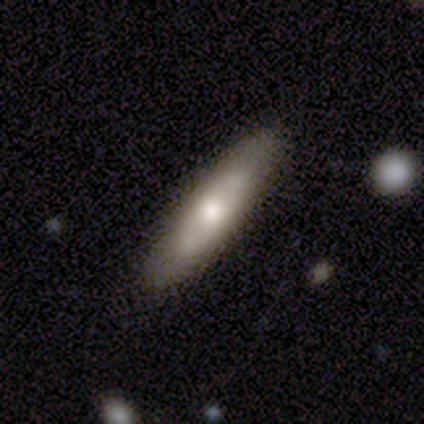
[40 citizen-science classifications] A smooth galaxy with no disk features (55%) that is cigar-shaped (82%). Merging: none (89%).